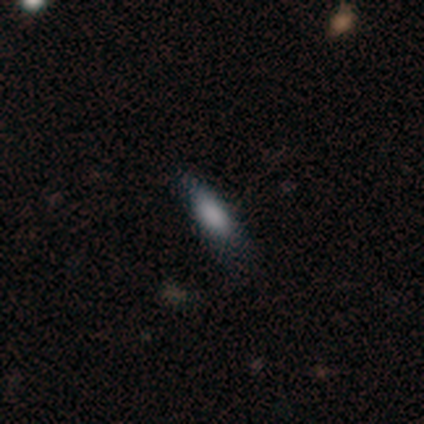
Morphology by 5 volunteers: This appears to be a smooth galaxy with no disk features (80%) that is in between round and cigar-shaped (100%). Merging: none (60%).